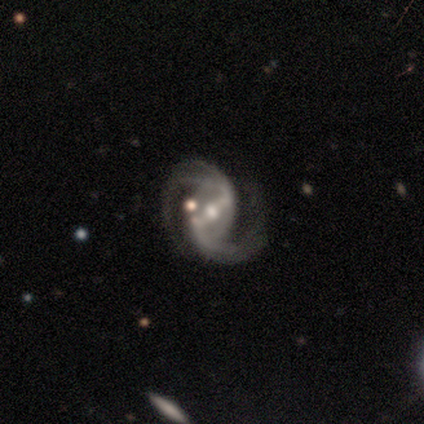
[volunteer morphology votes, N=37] Overall: featured or disk (89%). Edge-on disk: no (94%). Bar: strong (61%; weak 35%). Spiral arms: yes (100%). Spiral arm count: 2 (74%). Spiral winding: medium (58%; loose 29%). Bulge size: moderate (61%; small 39%). Merging: none (52%; minor disturbance 24%).